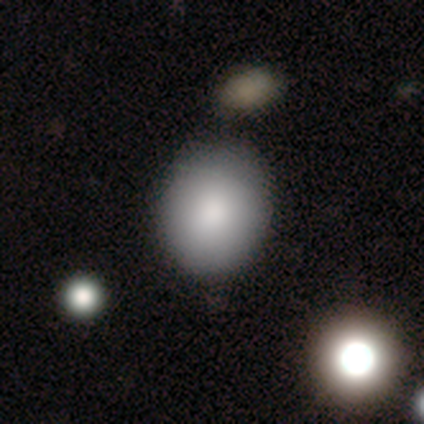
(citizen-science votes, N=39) Volunteers were most divided on "how rounded": round: 71%, in between: 29%, cigar-shaped: 0%. More confident: smooth or featured — smooth (90%); merging — none (57%).